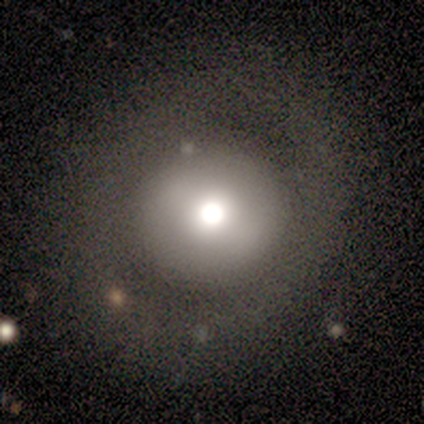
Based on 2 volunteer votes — Volunteers were most divided on "smooth or featured" (2-way tie): smooth: 50%, featured or disk: 50%, star or artifact: 0%; "merging" (2-way tie): none: 50%, major disturbance: 50%, minor disturbance: 0%, merger: 0%. More confident: how rounded — round (100%).